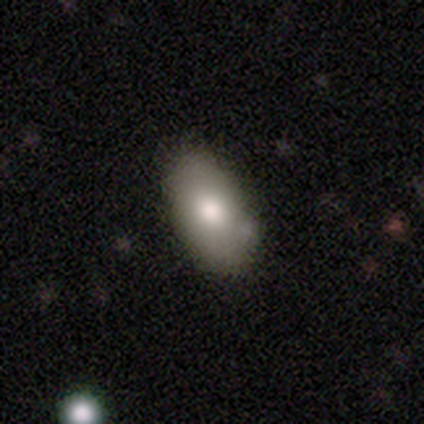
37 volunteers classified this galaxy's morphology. smooth_or_featured: smooth (p=0.65) [alt: featured or disk p=0.27]
how_rounded: in between (p=0.92) [alt: cigar-shaped p=0.08]
merging: none (p=0.76) [alt: minor disturbance p=0.21]